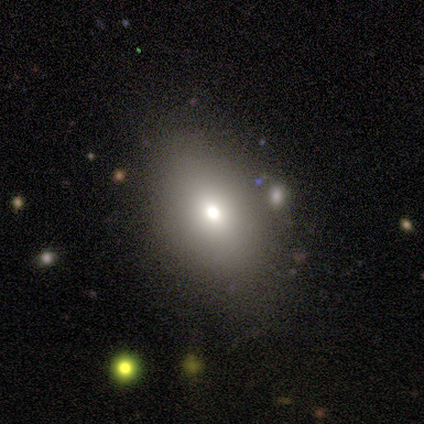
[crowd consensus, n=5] Smooth or featured? 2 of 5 (40%, tied with featured or disk) said smooth. How rounded? 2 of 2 (100%) said in between. Merging? 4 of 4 (100%) said none.